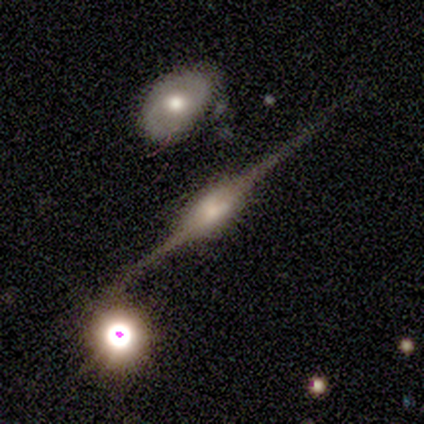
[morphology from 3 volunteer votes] A featured or disk galaxy (100%) viewed edge-on (100%) with a boxy central bulge (67%). Merging: none (67%).